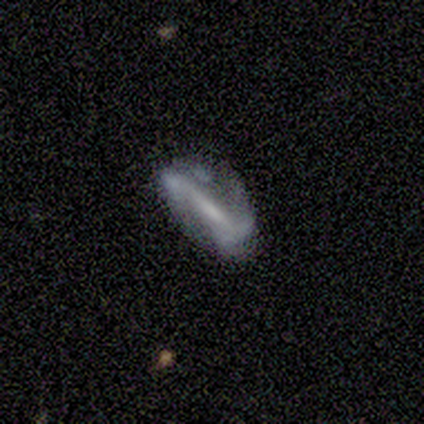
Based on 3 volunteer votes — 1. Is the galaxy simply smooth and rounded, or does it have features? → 100% featured or disk, 0% smooth, 0% star or artifact.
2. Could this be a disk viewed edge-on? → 67% no, 33% yes.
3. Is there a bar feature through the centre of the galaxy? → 50% strong (tied), 50% weak (tied), 0% no.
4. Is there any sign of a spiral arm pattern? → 100% yes, 0% no.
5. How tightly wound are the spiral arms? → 50% tight (tied), 50% loose (tied), 0% medium.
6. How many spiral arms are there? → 100% 2, 0% 1, 0% 3, 0% 4, 0% more than 4, 0% can't tell.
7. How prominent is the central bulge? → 100% small, 0% dominant, 0% large, 0% moderate, 0% none.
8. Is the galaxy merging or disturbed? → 67% none, 33% minor disturbance, 0% major disturbance, 0% merger.